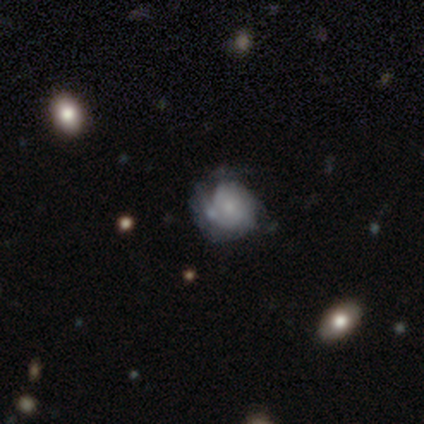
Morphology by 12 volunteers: smooth-or-featured: smooth: 42% (tied) | featured or disk: 42% (tied) | star or artifact: 17%
  how-rounded: round: 100% | in between: 0% | cigar-shaped: 0%
  merging: none: 50% | major disturbance: 30% | minor disturbance: 20% | merger: 0%